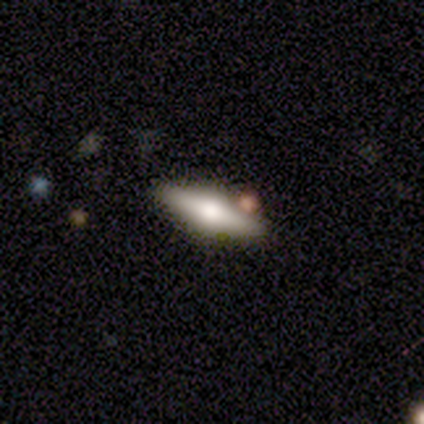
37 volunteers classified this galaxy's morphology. A featured or disk galaxy (76%) viewed edge-on (100%) with a rounded central bulge (96%). Merging: none (78%).